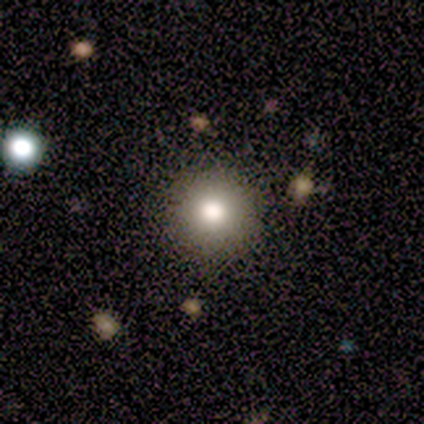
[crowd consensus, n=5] smooth-or-featured: smooth: 80% | featured or disk: 20% | star or artifact: 0%
  how-rounded: round: 100% | in between: 0% | cigar-shaped: 0%
  merging: none: 80% | major disturbance: 20% | minor disturbance: 0% | merger: 0%